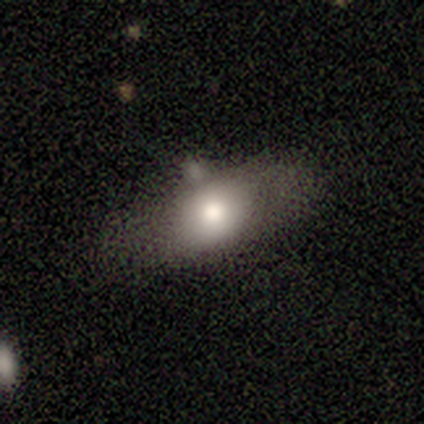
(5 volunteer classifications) smooth-or-featured: smooth: 80% | featured or disk: 20% | star or artifact: 0%
  how-rounded: round: 50% (tied) | in between: 50% (tied) | cigar-shaped: 0%
  merging: none: 60% | minor disturbance: 40% | major disturbance: 0% | merger: 0%